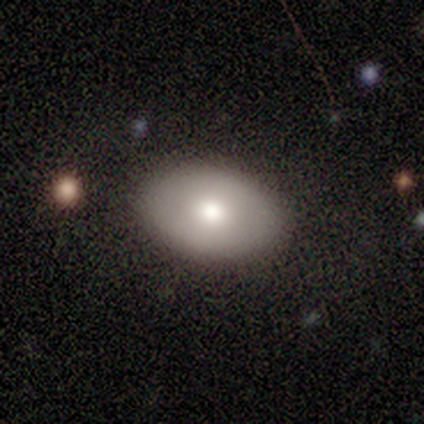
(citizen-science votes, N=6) Smooth or featured? 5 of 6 (83%) said smooth. How rounded? 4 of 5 (80%) said in between. Merging? 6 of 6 (100%) said none.